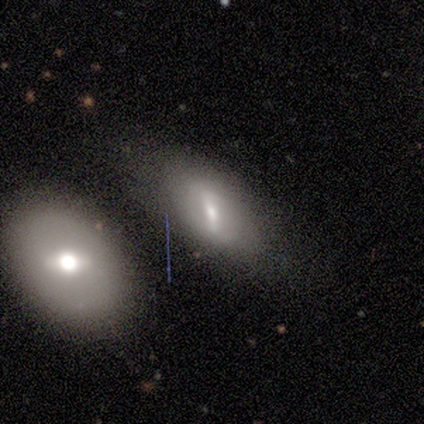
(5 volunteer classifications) A featured or disk galaxy (60%) with a weak bar (67%), no spiral arms (100%) and a small central bulge (67%).

Vote fractions:
- Smooth or featured? featured or disk: 60% / smooth: 40% / star or artifact: 0%
- Edge-on disk? no: 100% / yes: 0%
- Bar? weak: 67% / strong: 33% / no: 0%
- Spiral arms? no: 100% / yes: 0%
- Bulge size? small: 67% / moderate: 33% / dominant: 0% / large: 0% / none: 0%
- Merging? none: 40% (tied) / merger: 40% (tied) / minor disturbance: 20% / major disturbance: 0%